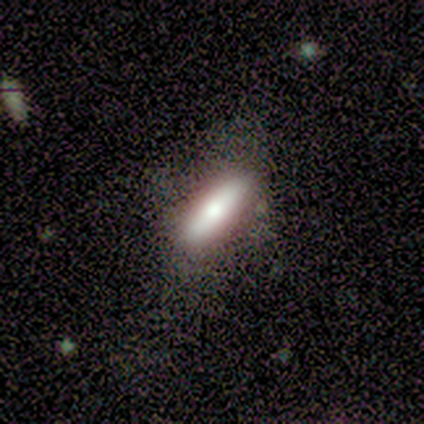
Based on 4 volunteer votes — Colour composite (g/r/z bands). It shows a smooth galaxy with no disk features (75%) that is cigar-shaped (67%). Merging: none (50%).